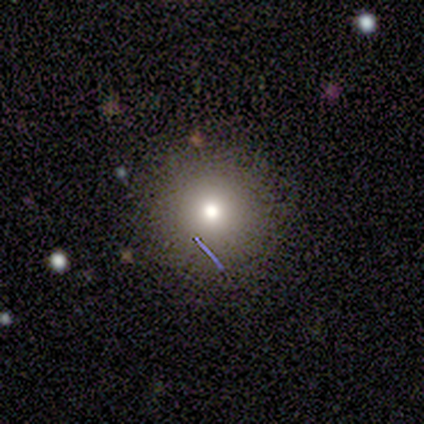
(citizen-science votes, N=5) Volunteers were most divided on "smooth or featured": smooth: 80%, featured or disk: 20%, star or artifact: 0%. More confident: how rounded — round (100%); merging — none (100%).